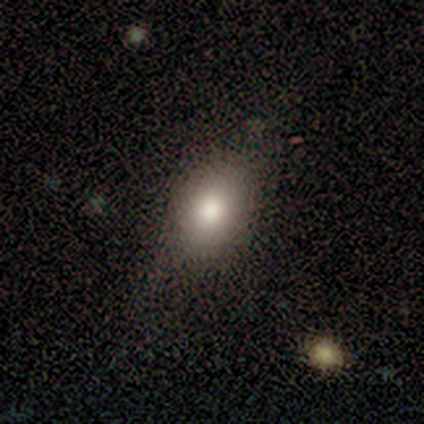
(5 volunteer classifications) A smooth galaxy with no disk features (80%) that is in between round and cigar-shaped (75%). Merging: none (50%, tied with major disturbance).